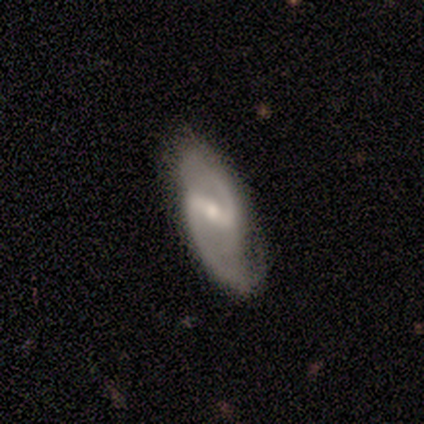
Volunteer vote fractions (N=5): Smooth or featured? 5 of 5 (100%) said featured or disk. Edge-on disk? 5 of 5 (100%) said no. Bar? 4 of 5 (80%) said strong. Spiral arms? 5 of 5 (100%) said yes. Spiral winding? 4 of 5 (80%) said medium. Spiral arm count? 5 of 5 (100%) said 2. Bulge size? 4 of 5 (80%) said moderate. Merging? 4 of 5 (80%) said none.